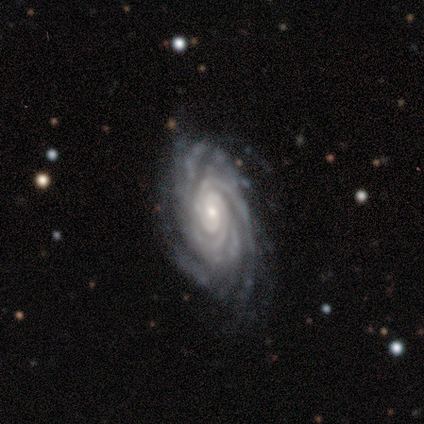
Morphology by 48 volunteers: Smooth or featured: featured or disk — 92% (smooth — 4%)
Edge-on disk: no — 95% (yes — 5%)
Bar: no — 76% (weak — 21%)
Spiral arms: yes — 98% (no — 2%)
Spiral winding: tight — 80% (medium — 20%)
Spiral arm count: can't tell — 32% (3 — 24%)
Bulge size: small — 62% (moderate — 33%)
Merging: none — 74% (minor disturbance — 15%)